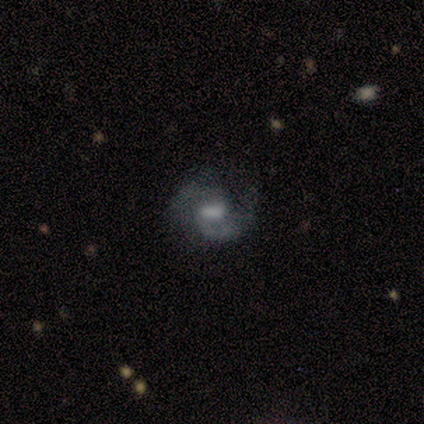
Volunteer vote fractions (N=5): Volunteers were most divided on "bar" (3-way tie): strong: 33%, weak: 33%, no: 33%. More confident: edge-on disk — no (100%); spiral arms — yes (100%); spiral winding — medium (100%); spiral arm count — 2 (100%); bulge size — moderate (100%); merging — none (80%); smooth or featured — featured or disk (60%).